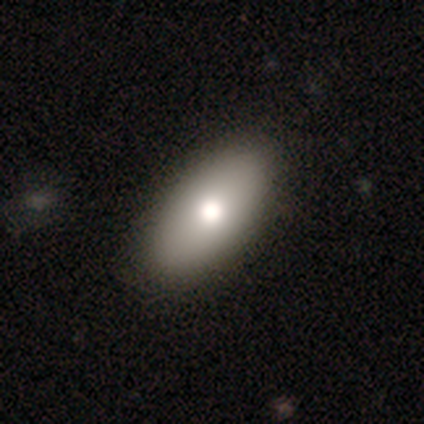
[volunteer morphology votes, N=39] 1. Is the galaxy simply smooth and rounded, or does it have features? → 82% smooth, 13% featured or disk, 5% star or artifact.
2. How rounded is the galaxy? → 94% in between, 6% cigar-shaped, 0% round.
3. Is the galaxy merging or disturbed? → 54% none, 3% minor disturbance, 3% major disturbance, 0% merger.